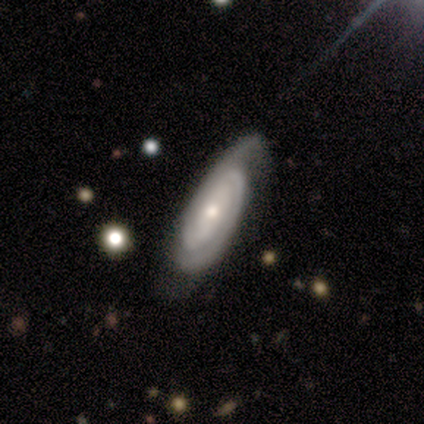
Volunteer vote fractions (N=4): Morphology: type=featured or disk (100%); edge-on=no (100%); bar=strong (50%, tied with no); spiral arms=yes (100%); winding=tight (75%); arm count=2 (50%); bulge=moderate (50%, tied with small); merging=none (100%).